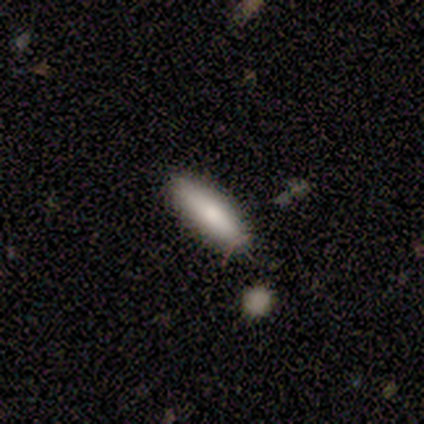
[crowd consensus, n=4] smooth-or-featured: smooth: 75% | featured or disk: 25% | star or artifact: 0%
  how-rounded: cigar-shaped: 100% | round: 0% | in between: 0%
  merging: none: 75% | minor disturbance: 25% | major disturbance: 0% | merger: 0%